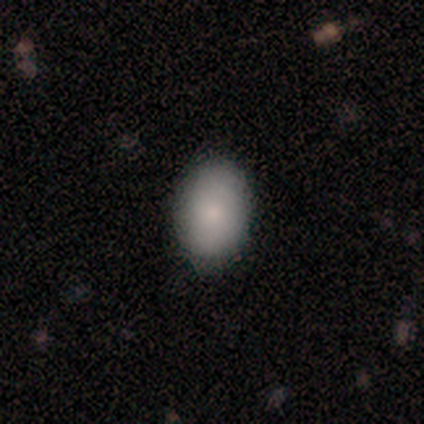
Smooth or featured? smooth (76%)
How rounded? in between (93%)
Merging? none (97%)